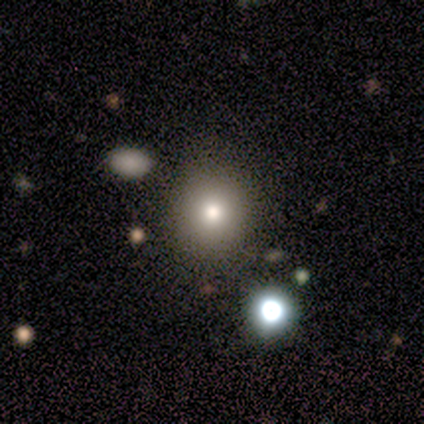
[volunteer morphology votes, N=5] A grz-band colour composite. It shows a smooth galaxy with no disk features (100%) that is round (80%). Merging: none (100%).